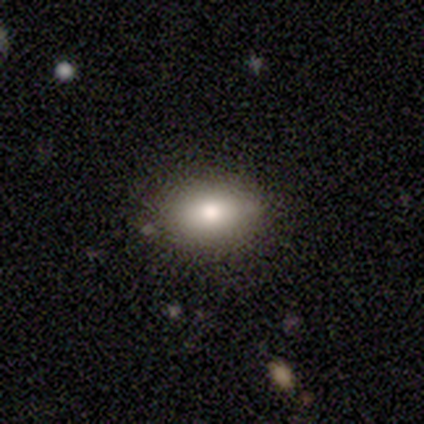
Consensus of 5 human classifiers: This is clearly a smooth galaxy (80%). How rounded: clearly in between (100%). Merging: likely none (60%).